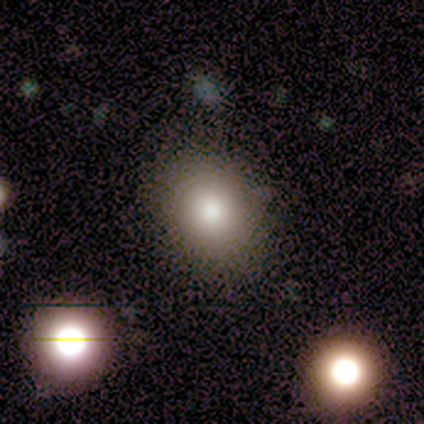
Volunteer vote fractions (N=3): smooth-or-featured: smooth: 100% | featured or disk: 0% | star or artifact: 0%
  how-rounded: in between: 67% | round: 33% | cigar-shaped: 0%
  merging: none: 100% | minor disturbance: 0% | major disturbance: 0% | merger: 0%